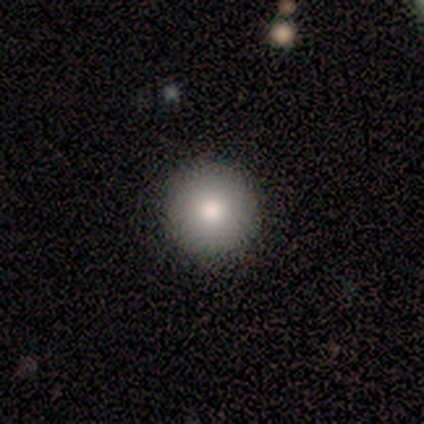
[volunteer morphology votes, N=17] A smooth galaxy with no disk features (76%) that is round (100%).

Vote fractions:
- Smooth or featured? smooth: 76% / featured or disk: 24% / star or artifact: 0%
- How rounded? round: 100% / in between: 0% / cigar-shaped: 0%
- Merging? none: 94% / minor disturbance: 6% / major disturbance: 0% / merger: 0%